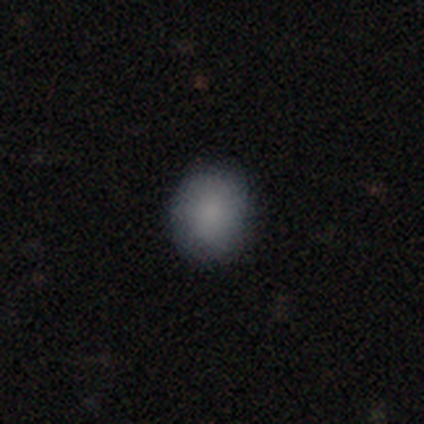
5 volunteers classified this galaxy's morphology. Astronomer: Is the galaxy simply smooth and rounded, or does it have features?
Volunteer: smooth — 100%.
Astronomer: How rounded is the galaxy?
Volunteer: round — 80%.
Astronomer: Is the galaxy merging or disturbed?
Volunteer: none — 80%.